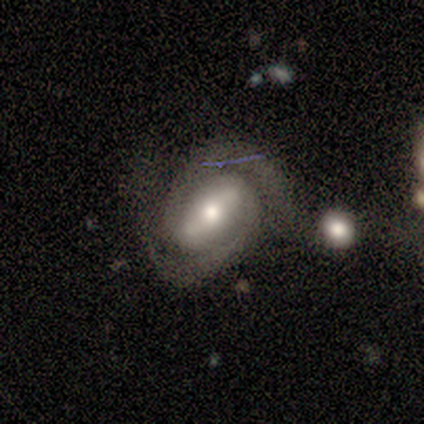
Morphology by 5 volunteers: Smooth or featured? featured or disk (80%)
Edge-on disk? no (100%)
Bar? strong (50%, tied with weak)
Spiral arms? yes (100%)
Spiral winding? tight (50%, tied with medium)
Spiral arm count? 2 (100%)
Bulge size? moderate (75%)
Merging? none (60%)